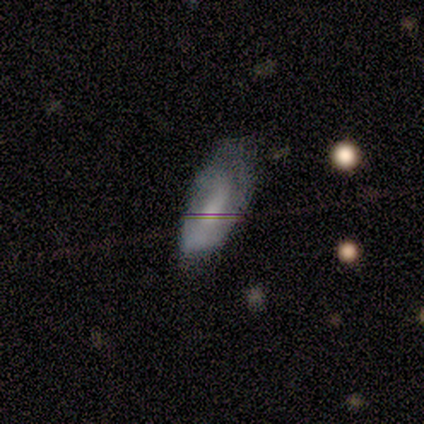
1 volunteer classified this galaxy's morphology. Smooth or featured? 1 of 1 (100%) said featured or disk. Edge-on disk? 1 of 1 (100%) said no. Bar? 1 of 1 (100%) said strong. Spiral arms? 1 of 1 (100%) said no. Bulge size? 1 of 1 (100%) said large. Merging? 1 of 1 (100%) said major disturbance.